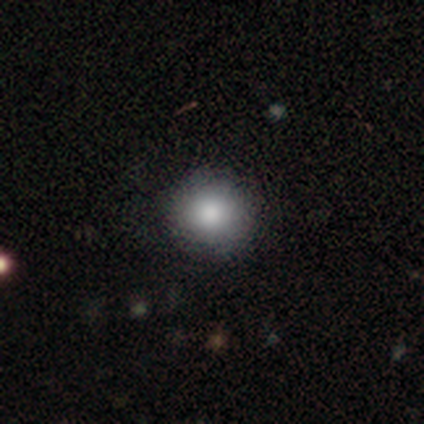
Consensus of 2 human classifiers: smooth 100%, featured or disk 0%, star or artifact 0%. Down the decision tree: how rounded — round (100%); merging — none (100%).